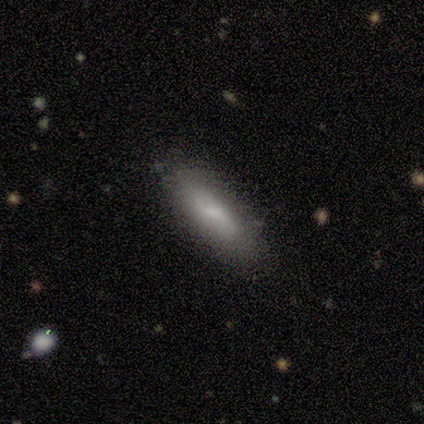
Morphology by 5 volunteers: smooth_or_featured: smooth (p=0.80) [alt: featured or disk p=0.20]
how_rounded: in between (p=0.50) [tied with: cigar-shaped p=0.50]
merging: none (p=0.80) [alt: minor disturbance p=0.20]